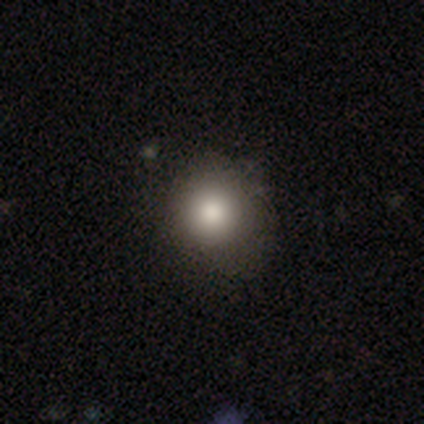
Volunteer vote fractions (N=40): Smooth or featured?
  - smooth: 90% *
  - featured or disk: 5%
  - star or artifact: 5%
How rounded?
  - round: 83% *
  - in between: 17%
  - cigar-shaped: 0%
Merging?
  - none: 61% *
  - minor disturbance: 13%
  - major disturbance: 0%
  - merger: 0%